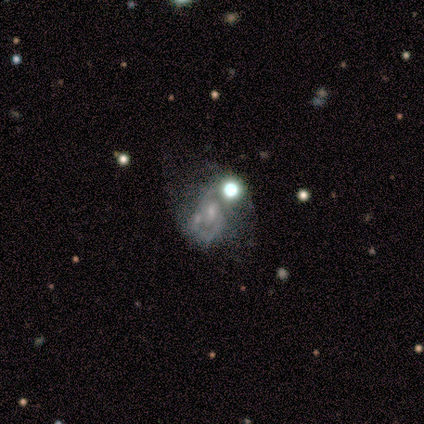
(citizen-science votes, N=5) This appears to be a featured or disk galaxy (100%) with a weak bar (60%), no spiral arms (80%) and a moderate central bulge (40%, tied with none). Merging: minor disturbance (40%, tied with major disturbance).